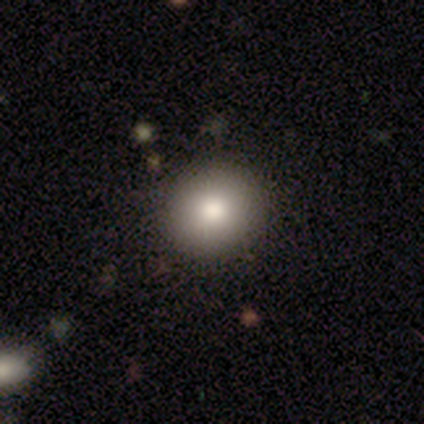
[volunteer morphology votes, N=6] Volunteers were most divided on "smooth or featured": smooth: 67%, star or artifact: 33%, featured or disk: 0%. More confident: how rounded — round (100%); merging — none (100%).